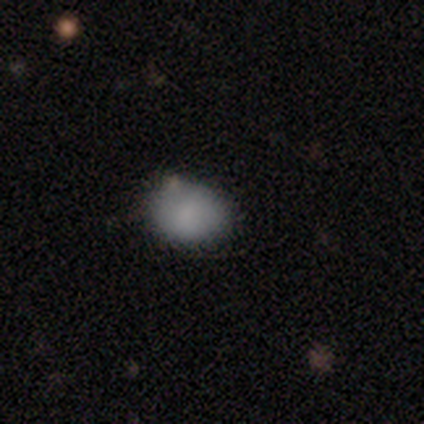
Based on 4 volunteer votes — Smooth or featured? 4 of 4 (100%) said smooth. How rounded? 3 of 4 (75%) said in between. Merging? 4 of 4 (100%) said none.